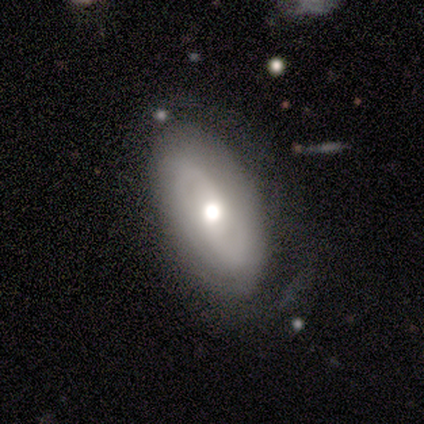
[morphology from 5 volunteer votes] A featured or disk galaxy (80%) with no bar (100%), 2 (100%) tight (75%) spiral arms (100%) and a moderate central bulge (75%).

Vote fractions:
- Smooth or featured? featured or disk: 80% / smooth: 20% / star or artifact: 0%
- Edge-on disk? no: 100% / yes: 0%
- Bar? no: 100% / strong: 0% / weak: 0%
- Spiral arms? yes: 100% / no: 0%
- Spiral winding? tight: 75% / medium: 25% / loose: 0%
- Spiral arm count? 2: 100% / 1: 0% / 3: 0% / 4: 0% / more than 4: 0% / can't tell: 0%
- Bulge size? moderate: 75% / small: 25% / dominant: 0% / large: 0% / none: 0%
- Merging? none: 100% / minor disturbance: 0% / major disturbance: 0% / merger: 0%